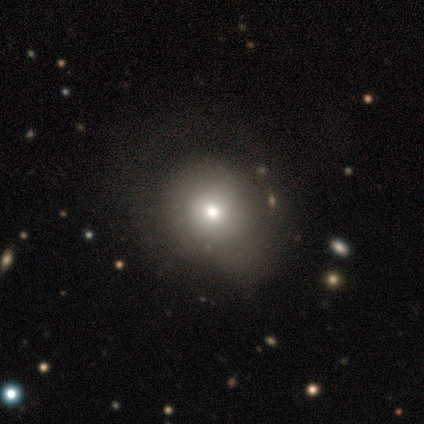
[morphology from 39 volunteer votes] A smooth galaxy with no disk features (56%) that is round (77%).

Vote fractions:
- Smooth or featured? smooth: 56% / featured or disk: 31% / star or artifact: 13%
- How rounded? round: 77% / in between: 23% / cigar-shaped: 0%
- Merging? none: 47% / minor disturbance: 26% / major disturbance: 21% / merger: 6%